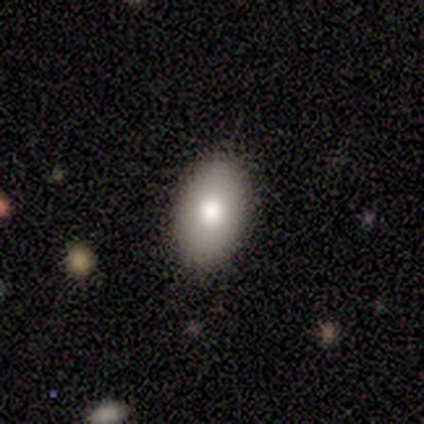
smooth-or-featured: smooth: 100% | featured or disk: 0% | star or artifact: 0%
  how-rounded: in between: 100% | round: 0% | cigar-shaped: 0%
  merging: none: 100% | minor disturbance: 0% | major disturbance: 0% | merger: 0%